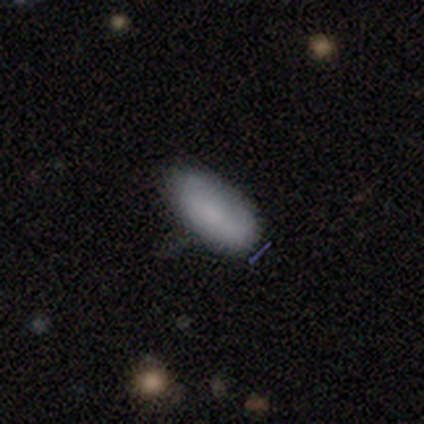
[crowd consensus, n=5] Morphology: type=smooth (100%); roundness=in between (100%); merging=none (60%).